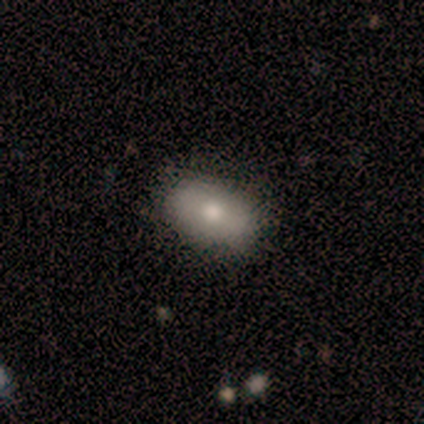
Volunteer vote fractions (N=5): smooth 80%, featured or disk 20%, star or artifact 0%. Down the decision tree: how rounded — in between (75%); merging — none (60%).